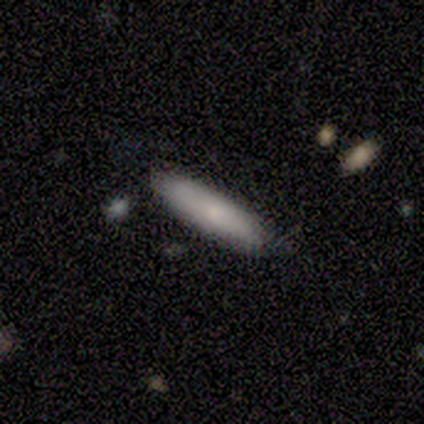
smooth_or_featured: smooth (p=0.80) [alt: featured or disk p=0.20]
how_rounded: in between (p=0.50) [tied with: cigar-shaped p=0.50]
merging: none (p=0.60) [alt: minor disturbance p=0.20]